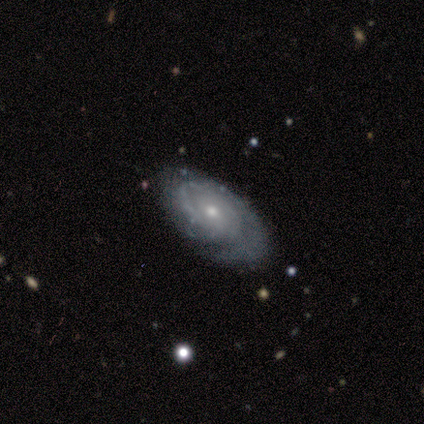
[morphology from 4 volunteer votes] Smooth or featured?
  - featured or disk: 100% *
  - smooth: 0%
  - star or artifact: 0%
Edge-on disk?
  - no: 100% *
  - yes: 0%
Bar?
  - no: 100% *
  - strong: 0%
  - weak: 0%
Spiral arms?
  - yes: 100% *
  - no: 0%
Spiral winding?
  - tight: 50% *
  - medium: 25%
  - loose: 25%
Spiral arm count?
  - 1: 50% *
  - more than 4: 25%
  - can't tell: 25%
  - 2: 0%
  - 3: 0%
  - 4: 0%
Bulge size?
  - moderate: 75% *
  - small: 25%
  - dominant: 0%
  - large: 0%
  - none: 0%
Merging?
  - none: 75% *
  - minor disturbance: 25%
  - major disturbance: 0%
  - merger: 0%